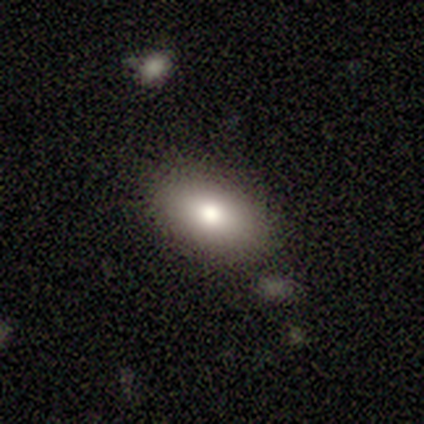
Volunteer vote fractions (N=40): Q: Smooth or featured?
A: smooth (70%); runner-up: featured or disk (20%)
Q: How rounded?
A: in between (89%); runner-up: round (11%)
Q: Merging?
A: none (92%); runner-up: minor disturbance (6%)